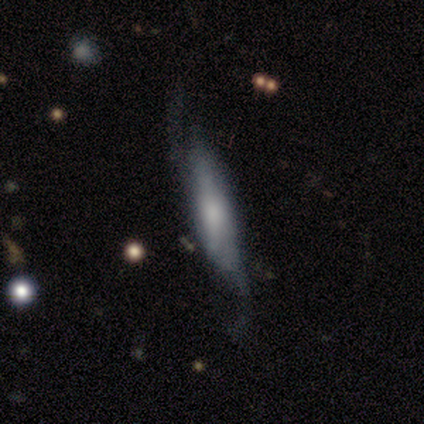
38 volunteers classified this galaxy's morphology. Overall: featured or disk (61%; smooth 34%). Edge-on disk: yes (78%). Edge-on bulge: none (39%, tied with rounded). Merging: none (53%; minor disturbance 22%).